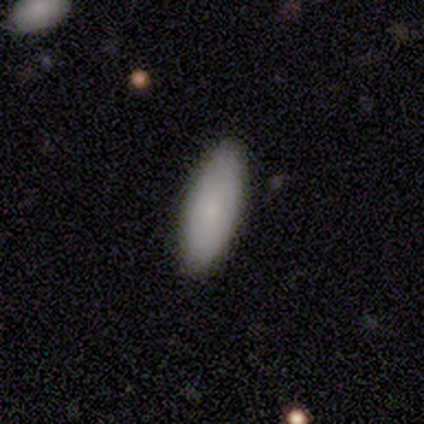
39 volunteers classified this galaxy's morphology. This is clearly a smooth galaxy (85%). How rounded: likely in between (61%). Merging: clearly none (86%).